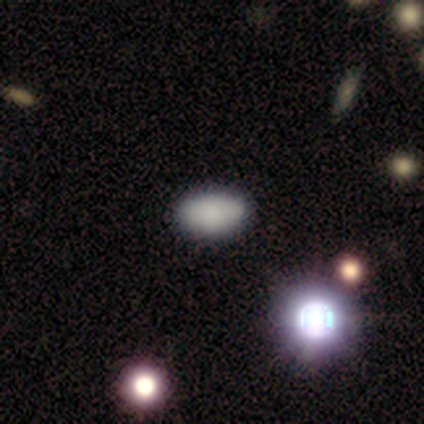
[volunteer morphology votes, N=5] Smooth or featured: smooth — 60% (star or artifact — 40%)
How rounded: in between — 100%
Merging: none — 100%